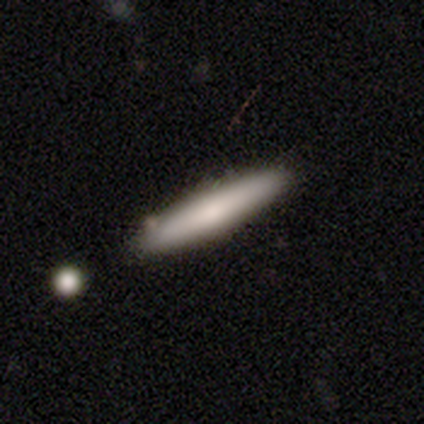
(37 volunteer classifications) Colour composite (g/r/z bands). It shows a smooth galaxy with no disk features (59%) that is cigar-shaped (100%). Merging: none (81%).